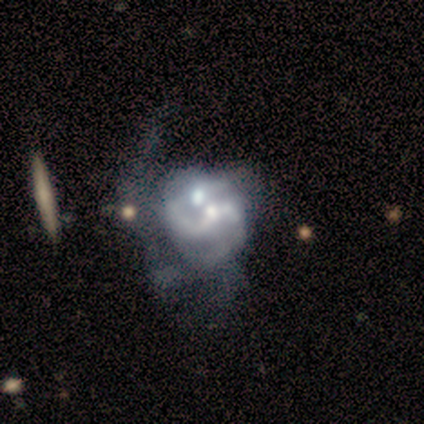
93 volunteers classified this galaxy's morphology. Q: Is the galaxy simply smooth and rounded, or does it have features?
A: featured or disk — 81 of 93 (87%).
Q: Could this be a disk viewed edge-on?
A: no — 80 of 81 (99%).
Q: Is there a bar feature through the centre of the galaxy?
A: no — 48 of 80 (60%).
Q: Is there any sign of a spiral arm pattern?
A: yes — 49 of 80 (61%).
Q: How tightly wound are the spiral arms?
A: loose — 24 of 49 (49%).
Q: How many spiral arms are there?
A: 2 — 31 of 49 (63%).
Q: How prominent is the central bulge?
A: moderate — 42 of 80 (52%).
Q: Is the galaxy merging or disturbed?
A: merger — 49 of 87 (56%).